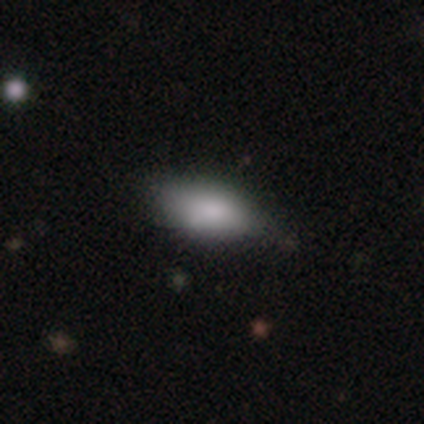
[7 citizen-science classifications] smooth 100%, featured or disk 0%, star or artifact 0%. Down the decision tree: how rounded — in between (86%); merging — none (57%).